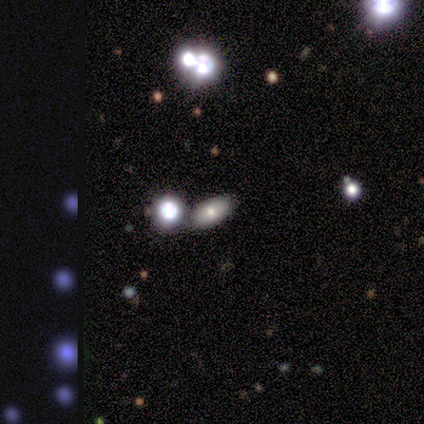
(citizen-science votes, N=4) Smooth or featured: smooth — 75% (featured or disk — 25%)
How rounded: in between — 67% (round — 33%)
Merging: none — 75% (merger — 25%)